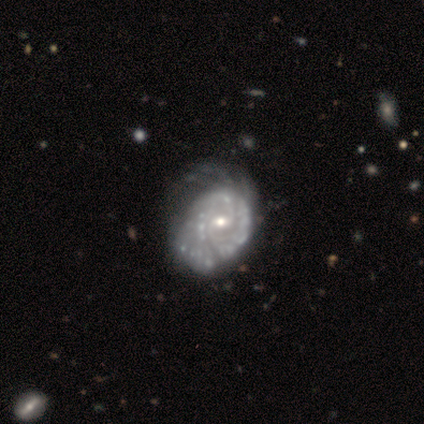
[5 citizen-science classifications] A featured or disk galaxy (100%) with no bar (80%), tight (80%) spiral arms (100%) and a small central bulge (80%).

Vote fractions:
- Smooth or featured? featured or disk: 100% / smooth: 0% / star or artifact: 0%
- Edge-on disk? no: 100% / yes: 0%
- Bar? no: 80% / strong: 20% / weak: 0%
- Spiral arms? yes: 100% / no: 0%
- Spiral winding? tight: 80% / medium: 20% / loose: 0%
- Spiral arm count? can't tell: 60% / 2: 20% / 4: 20% / 1: 0% / 3: 0% / more than 4: 0%
- Bulge size? small: 80% / moderate: 20% / dominant: 0% / large: 0% / none: 0%
- Merging? minor disturbance: 40% (tied) / major disturbance: 40% (tied) / none: 20% / merger: 0%